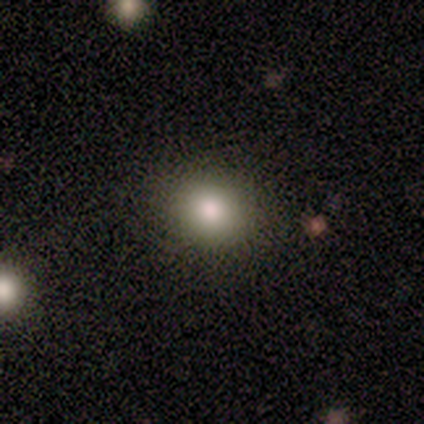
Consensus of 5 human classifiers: This is clearly a smooth galaxy (80%). How rounded: possibly round (50%). Merging: likely none (75%).